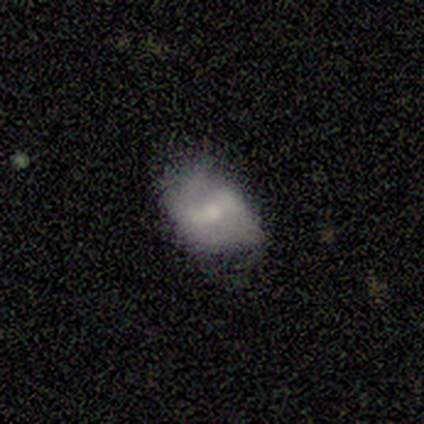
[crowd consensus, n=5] This is likely a featured or disk galaxy (60%). It is likely not viewed edge-on (67%). Bar: possibly weak (50%, tied with no). Spiral arm pattern: clearly no (100%). Central bulge: possibly moderate (50%, tied with small). Merging: likely none (67%).